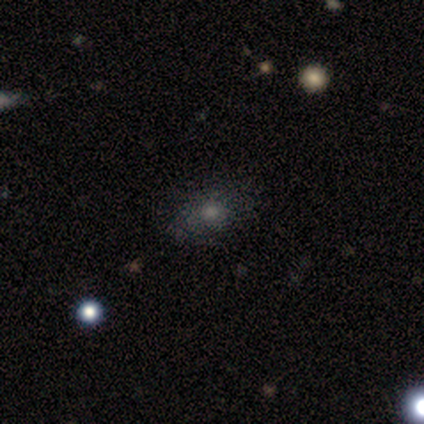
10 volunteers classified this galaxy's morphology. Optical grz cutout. It shows a smooth galaxy with no disk features (70%) that is in between round and cigar-shaped (71%). Merging: none (80%).